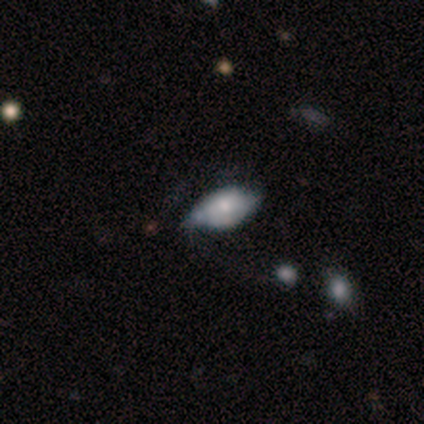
smooth_or_featured: smooth (p=0.56) [alt: featured or disk p=0.38]
how_rounded: in between (p=0.89) [alt: cigar-shaped p=0.11]
merging: minor disturbance (p=0.60) [alt: none p=0.27]